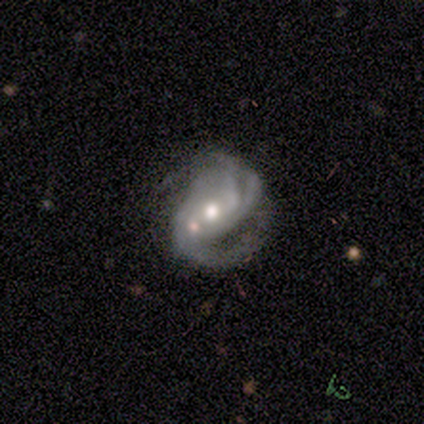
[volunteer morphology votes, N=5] A featured or disk galaxy (100%) with no bar (100%), 3 (40%, tied with can't tell) medium (80%) spiral arms (100%) and a moderate central bulge (80%).

Vote fractions:
- Smooth or featured? featured or disk: 100% / smooth: 0% / star or artifact: 0%
- Edge-on disk? no: 100% / yes: 0%
- Bar? no: 100% / strong: 0% / weak: 0%
- Spiral arms? yes: 100% / no: 0%
- Spiral winding? medium: 80% / tight: 20% / loose: 0%
- Spiral arm count? 3: 40% (tied) / can't tell: 40% (tied) / 1: 20% / 2: 0% / 4: 0% / more than 4: 0%
- Bulge size? moderate: 80% / dominant: 20% / large: 0% / small: 0% / none: 0%
- Merging? major disturbance: 40% / none: 20% / minor disturbance: 20% / merger: 20%